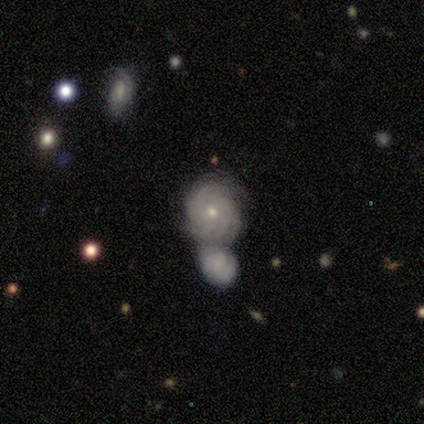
Smooth or featured? 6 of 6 (100%) said featured or disk. Edge-on disk? 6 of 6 (100%) said no. Bar? 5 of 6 (83%) said no. Spiral arms? 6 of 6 (100%) said yes. Spiral winding? 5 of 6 (83%) said tight. Spiral arm count? 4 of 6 (67%) said can't tell. Bulge size? 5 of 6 (83%) said small. Merging? 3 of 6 (50%, tied with merger) said none.